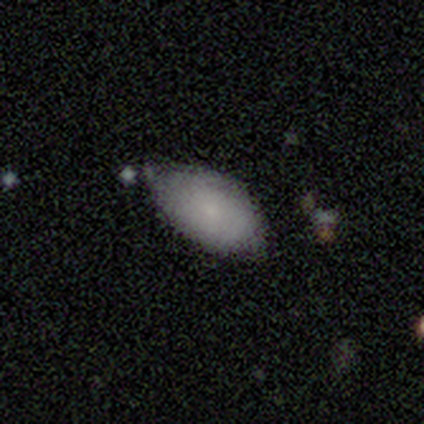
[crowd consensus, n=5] Smooth or featured?
  - smooth: 100% *
  - featured or disk: 0%
  - star or artifact: 0%
How rounded?
  - in between: 80% *
  - round: 20%
  - cigar-shaped: 0%
Merging?
  - none: 60% *
  - minor disturbance: 40%
  - major disturbance: 0%
  - merger: 0%